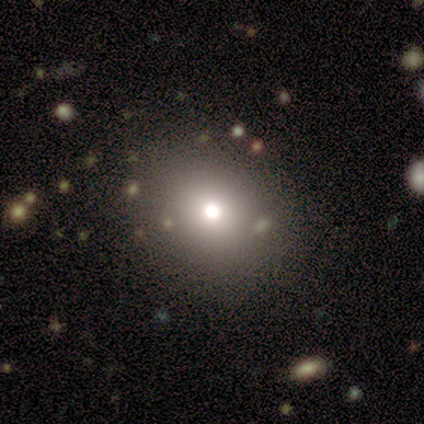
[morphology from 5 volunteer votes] Q: Smooth or featured?
A: smooth (80%); runner-up: star or artifact (20%)
Q: How rounded?
A: round (75%); runner-up: in between (25%)
Q: Merging?
A: none (100%)